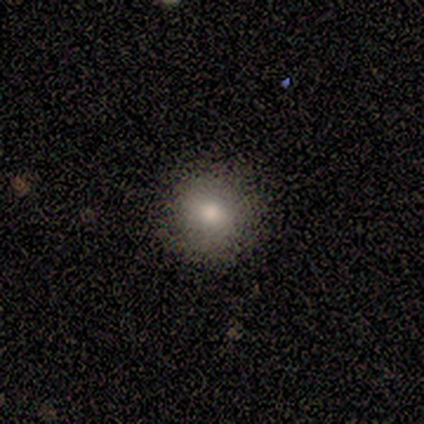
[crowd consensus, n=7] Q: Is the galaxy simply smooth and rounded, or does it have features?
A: smooth — 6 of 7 (86%).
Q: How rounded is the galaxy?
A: round — 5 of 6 (83%).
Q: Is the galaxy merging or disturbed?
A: none — 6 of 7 (86%).